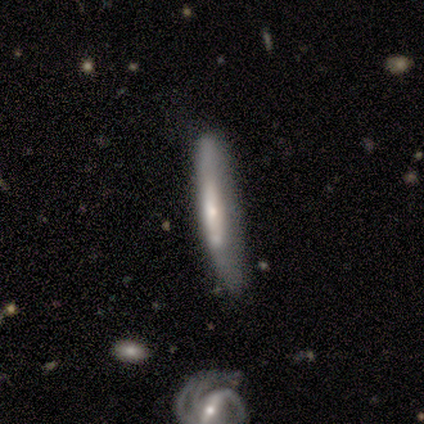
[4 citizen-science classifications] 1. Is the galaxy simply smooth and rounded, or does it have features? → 50% smooth (tied), 50% featured or disk (tied), 0% star or artifact.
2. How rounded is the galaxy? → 100% cigar-shaped, 0% round, 0% in between.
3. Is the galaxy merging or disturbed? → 50% none (tied), 50% minor disturbance (tied), 0% major disturbance, 0% merger.